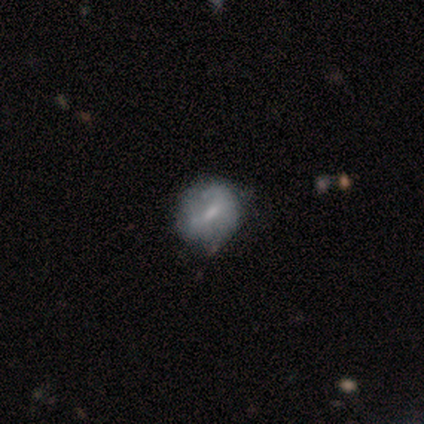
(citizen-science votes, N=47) Volunteers were most divided on "bulge size": small: 46%, moderate: 38%, none: 15%, dominant: 0%, large: 0%. More confident: edge-on disk — no (96%); bar — weak (69%); merging — none (65%); spiral arms — no (58%); smooth or featured — featured or disk (57%).